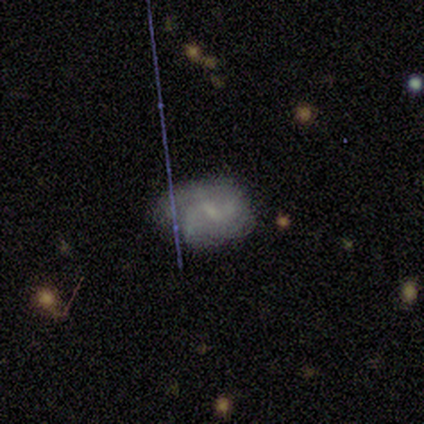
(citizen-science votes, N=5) Smooth or featured: featured or disk — 80% (smooth — 20%)
Edge-on disk: no — 100%
Bar: weak — 75% (no — 25%)
Spiral arms: yes — 75% (no — 25%)
Spiral winding: medium — 67% (loose — 33%)
Spiral arm count: can't tell — 67% (2 — 33%)
Bulge size: moderate — 50% (tied with small — 50%)
Merging: none — 60% (minor disturbance — 40%)